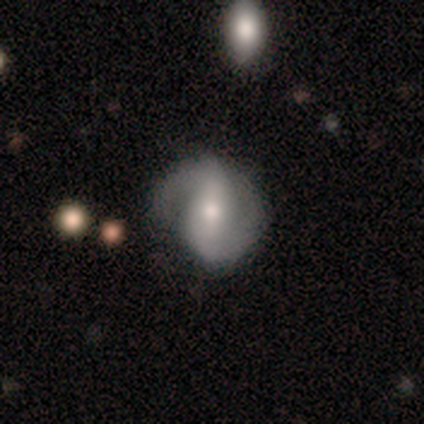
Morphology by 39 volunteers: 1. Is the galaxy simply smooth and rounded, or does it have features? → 77% featured or disk, 15% smooth, 8% star or artifact.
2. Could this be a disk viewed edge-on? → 100% no, 0% yes.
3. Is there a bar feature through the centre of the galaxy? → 53% weak, 33% strong, 13% no.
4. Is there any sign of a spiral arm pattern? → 93% yes, 7% no.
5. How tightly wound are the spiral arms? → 54% medium, 25% tight, 21% loose.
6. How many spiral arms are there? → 86% 2, 14% 1, 0% 3, 0% 4, 0% more than 4, 0% can't tell.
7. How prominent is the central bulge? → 67% moderate, 30% small, 3% large, 0% dominant, 0% none.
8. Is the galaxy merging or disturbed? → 72% none, 19% minor disturbance, 8% major disturbance, 0% merger.